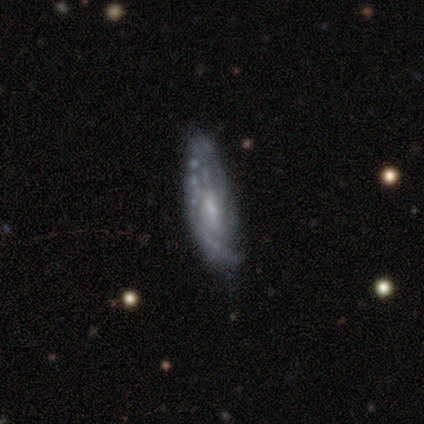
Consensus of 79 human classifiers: This appears to be a featured or disk galaxy (86%) with no bar (56%), tight (50%) spiral arms (71%) and a small central bulge (49%). Merging: none (29%).